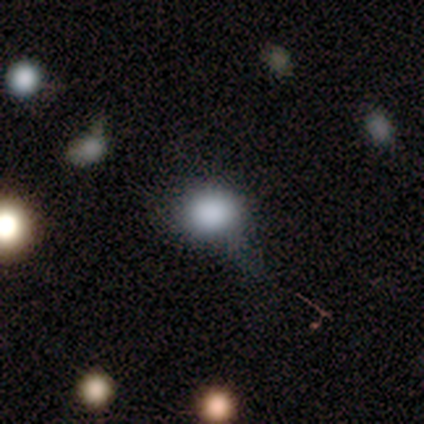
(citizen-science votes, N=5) Smooth or featured: smooth — 100%
How rounded: in between — 60% (round — 40%)
Merging: minor disturbance — 60% (major disturbance — 40%)